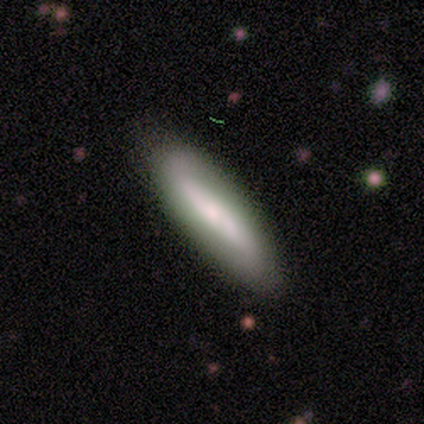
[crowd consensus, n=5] smooth 80%, featured or disk 20%, star or artifact 0%. Down the decision tree: how rounded — cigar-shaped (75%); merging — none (80%).